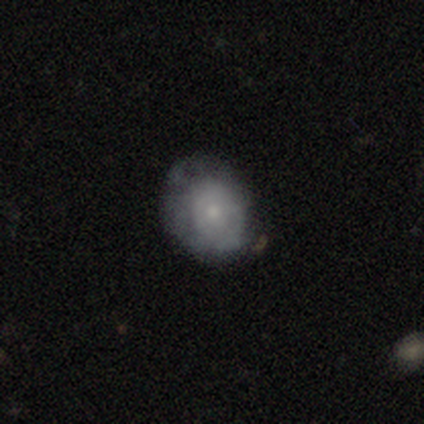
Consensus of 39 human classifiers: Volunteers were most divided on "spiral arms": no: 52%, yes: 48%. More confident: edge-on disk — no (100%); bar — no (100%); bulge size — small (65%); smooth or featured — featured or disk (59%); merging — none (58%).